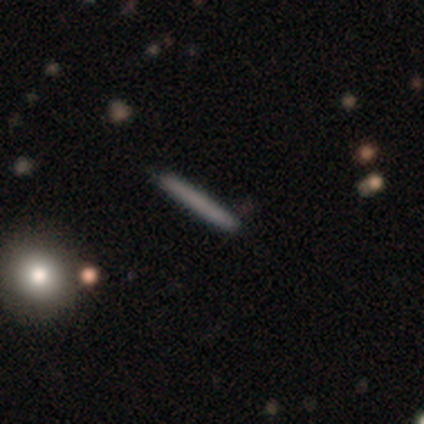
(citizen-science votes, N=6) Volunteers were most divided on "smooth or featured" (2-way tie): smooth: 50%, featured or disk: 50%, star or artifact: 0%. More confident: how rounded — cigar-shaped (100%); merging — none (100%).